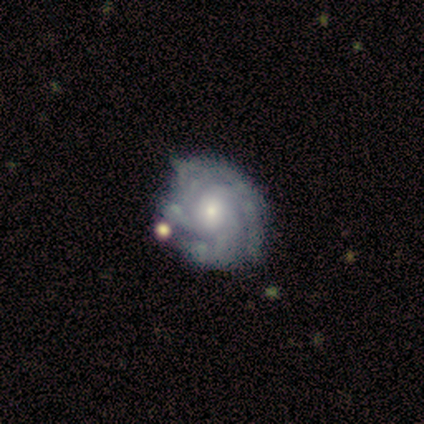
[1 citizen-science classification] smooth-or-featured: featured or disk: 100% | smooth: 0% | star or artifact: 0%
  disk-edge-on: no: 100% | yes: 0%
    bar: no: 100% | strong: 0% | weak: 0%
    has-spiral-arms: yes: 100% | no: 0%
      spiral-winding: tight: 100% | medium: 0% | loose: 0%
      spiral-arm-count: more than 4: 100% | 1: 0% | 2: 0% | 3: 0% | 4: 0% | can't tell: 0%
    bulge-size: small: 100% | dominant: 0% | large: 0% | moderate: 0% | none: 0%
  merging: none: 100% | minor disturbance: 0% | major disturbance: 0% | merger: 0%